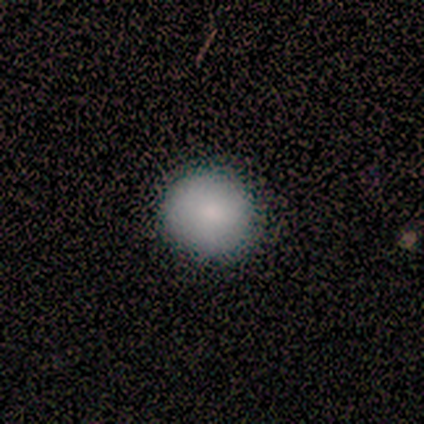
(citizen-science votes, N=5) Smooth or featured? 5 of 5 (100%) said smooth. How rounded? 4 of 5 (80%) said round. Merging? 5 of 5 (100%) said none.